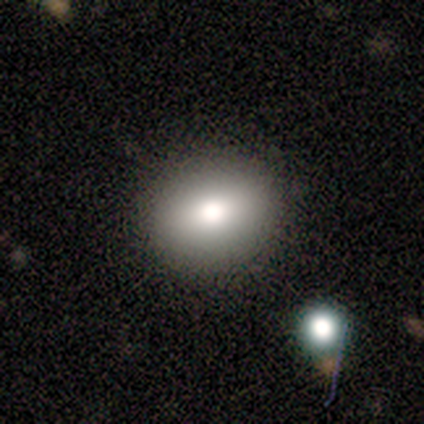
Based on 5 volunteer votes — Smooth or featured? 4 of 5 (80%) said smooth. How rounded? 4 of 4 (100%) said round. Merging? 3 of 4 (75%) said none.